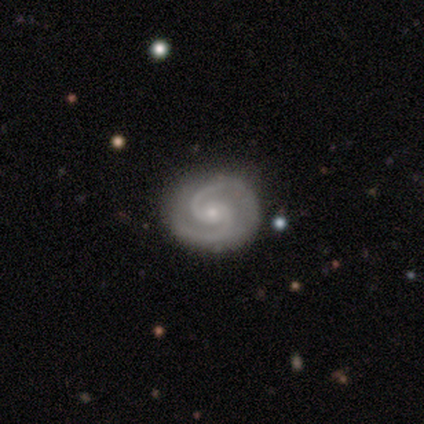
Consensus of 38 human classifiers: Q: Smooth or featured?
A: featured or disk (95%); runner-up: star or artifact (5%)
Q: Edge-on disk?
A: no (97%); runner-up: yes (3%)
Q: Bar?
A: no (63%); runner-up: weak (29%)
Q: Spiral arms?
A: yes (100%)
Q: Spiral winding?
A: medium (51%); runner-up: tight (46%)
Q: Spiral arm count?
A: 2 (97%); runner-up: can't tell (3%)
Q: Bulge size?
A: small (69%); runner-up: moderate (31%)
Q: Merging?
A: none (78%); runner-up: minor disturbance (19%)